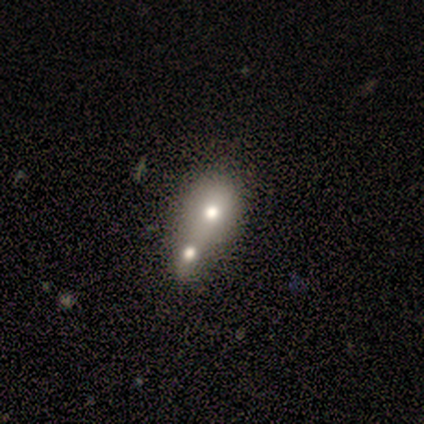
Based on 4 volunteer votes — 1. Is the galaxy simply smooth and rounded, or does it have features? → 50% smooth, 25% featured or disk, 25% star or artifact.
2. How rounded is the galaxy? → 100% in between, 0% round, 0% cigar-shaped.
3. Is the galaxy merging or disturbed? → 67% merger, 33% major disturbance, 0% none, 0% minor disturbance.